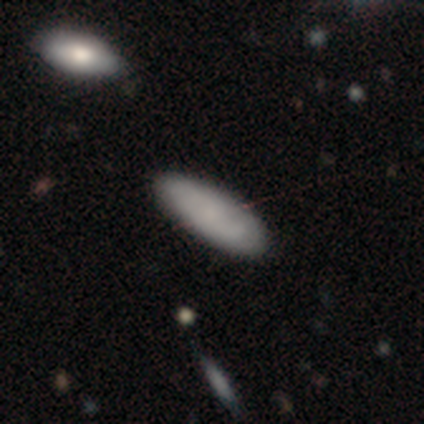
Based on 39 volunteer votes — smooth-or-featured: smooth: 79% | featured or disk: 15% | star or artifact: 5%
  how-rounded: in between: 74% | cigar-shaped: 23% | round: 3%
  merging: none: 97% | minor disturbance: 3% | major disturbance: 0% | merger: 0%